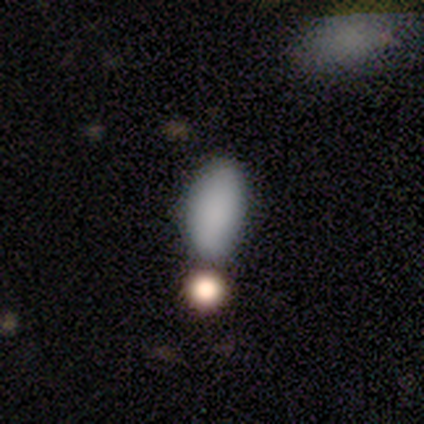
smooth 100%, featured or disk 0%, star or artifact 0%. Down the decision tree: how rounded — in between (100%); merging — none (70%).